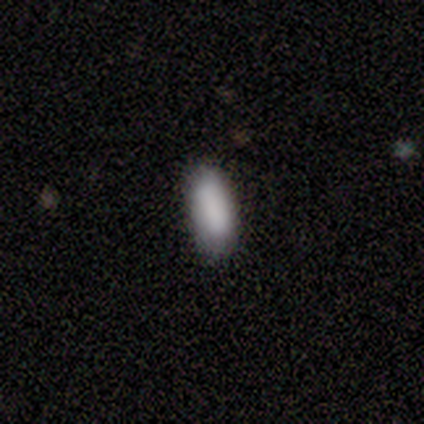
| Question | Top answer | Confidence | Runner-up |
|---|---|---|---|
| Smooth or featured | smooth | 100% | — |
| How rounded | in between | 80% | cigar-shaped (20%) |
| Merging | none | 80% | minor disturbance (20%) |